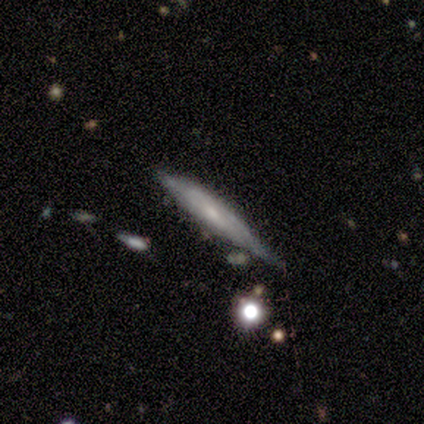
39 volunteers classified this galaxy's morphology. type=featured or disk (56%); edge-on=yes (73%); edge-on bulge=none (56%); merging=none (51%).